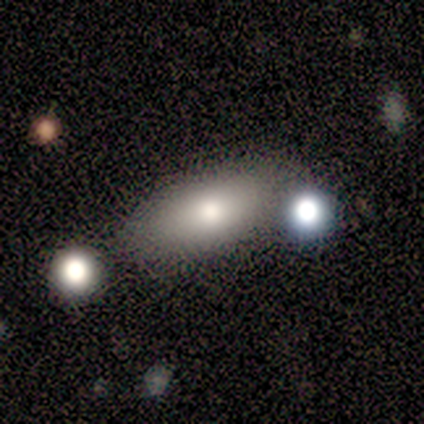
Volunteers were most divided on "how rounded": in between: 83%, cigar-shaped: 17%, round: 0%. More confident: smooth or featured — smooth (100%); merging — none (83%).